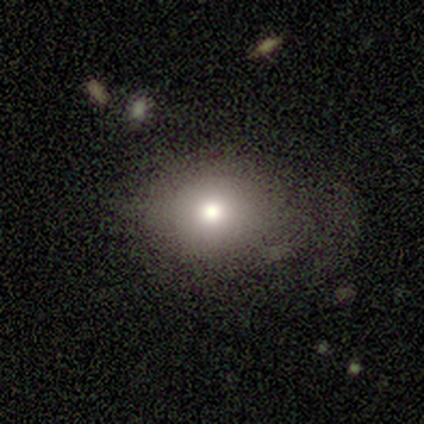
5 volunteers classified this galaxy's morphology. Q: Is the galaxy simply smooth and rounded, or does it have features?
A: smooth — 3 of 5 (60%).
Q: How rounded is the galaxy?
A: in between — 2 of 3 (67%).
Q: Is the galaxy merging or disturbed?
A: none — 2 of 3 (67%).